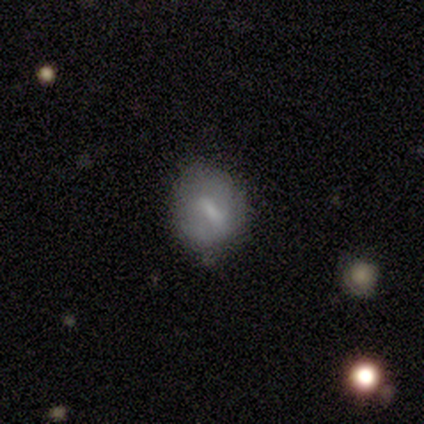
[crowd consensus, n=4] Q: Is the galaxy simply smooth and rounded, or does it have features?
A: smooth — 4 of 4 (100%).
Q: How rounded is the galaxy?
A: round — 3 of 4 (75%).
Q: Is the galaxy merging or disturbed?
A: none — 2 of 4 (50%, tied with minor disturbance).